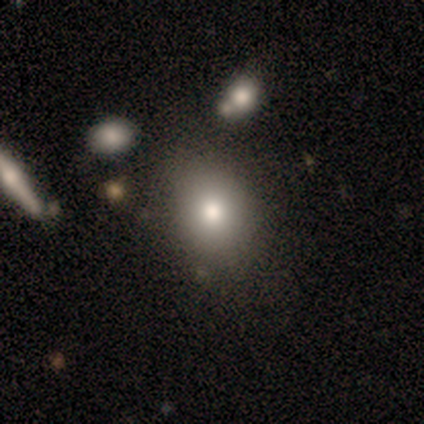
Q: Smooth or featured?
A: smooth (88%); runner-up: featured or disk (12%)
Q: How rounded?
A: round (71%); runner-up: in between (29%)
Q: Merging?
A: none (75%); runner-up: minor disturbance (25%)